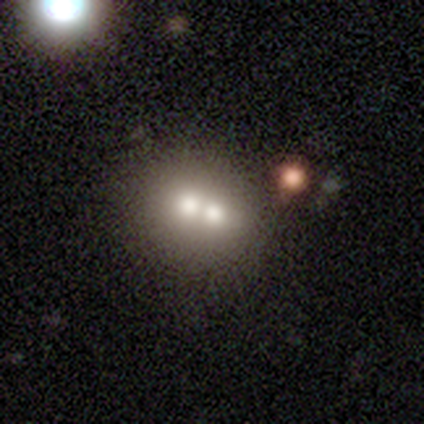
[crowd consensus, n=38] Smooth or featured?
  - smooth: 61% *
  - featured or disk: 21%
  - star or artifact: 18%
How rounded?
  - round: 78% *
  - in between: 22%
  - cigar-shaped: 0%
Merging?
  - merger: 68% *
  - none: 0%
  - minor disturbance: 0%
  - major disturbance: 0%